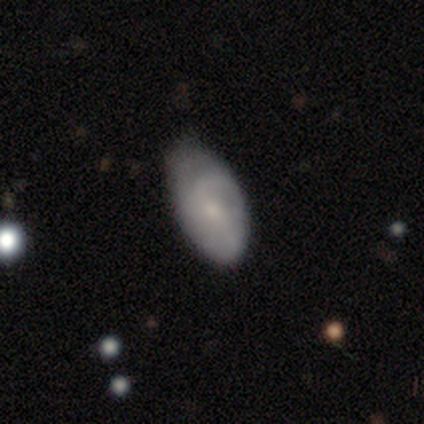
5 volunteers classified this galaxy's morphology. Volunteers were most divided on "merging": minor disturbance: 60%, none: 40%, major disturbance: 0%, merger: 0%. More confident: edge-on disk — no (100%); spiral arms — yes (100%); smooth or featured — featured or disk (80%); bar — no (75%); bulge size — small (75%); spiral winding — tight (50%); spiral arm count — can't tell (50%).